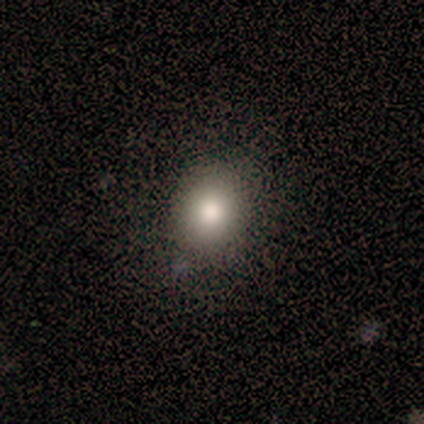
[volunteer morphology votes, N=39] Smooth or featured? smooth (74%)
How rounded? round (79%)
Merging? none (75%)